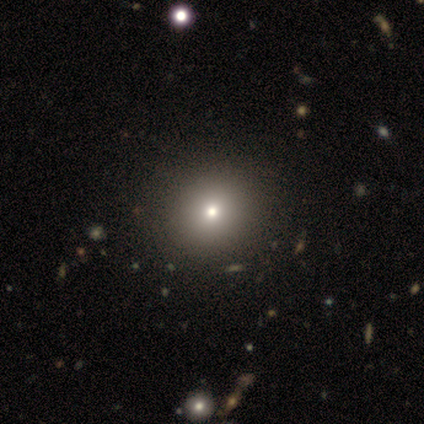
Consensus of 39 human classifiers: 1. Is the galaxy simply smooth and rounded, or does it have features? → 77% smooth, 13% star or artifact, 10% featured or disk.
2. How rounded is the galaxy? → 97% round, 3% in between, 0% cigar-shaped.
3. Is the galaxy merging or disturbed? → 59% none, 3% minor disturbance, 3% major disturbance, 3% merger.